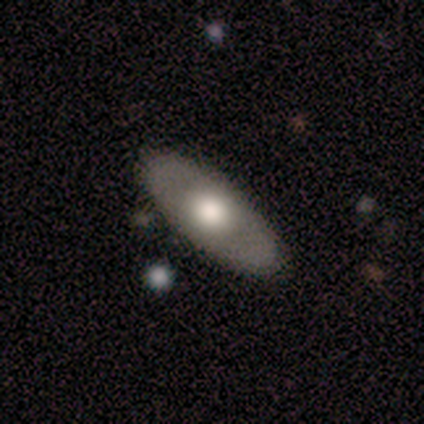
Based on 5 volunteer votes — Overall: smooth (80%). How rounded: in between (75%). Merging: none (80%).